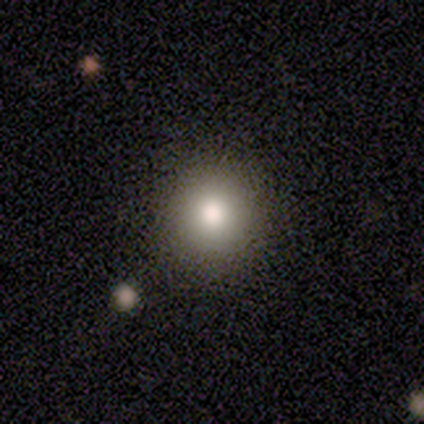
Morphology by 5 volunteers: This is clearly a smooth galaxy (100%). How rounded: clearly round (100%). Merging: clearly none (100%).